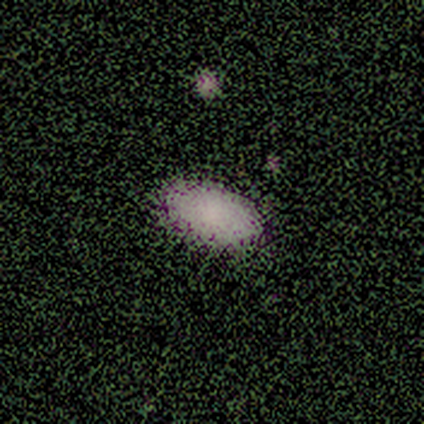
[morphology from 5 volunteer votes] This appears to be a smooth galaxy with no disk features (80%) that is in between round and cigar-shaped (100%). Merging: none (75%).